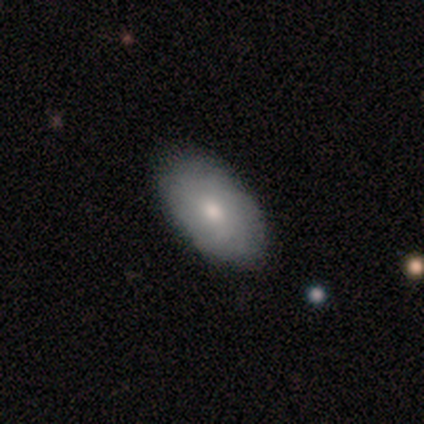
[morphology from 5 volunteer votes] Smooth or featured? smooth (60%)
How rounded? in between (100%)
Merging? none (80%)